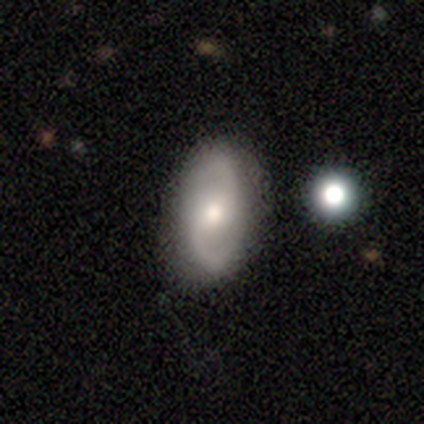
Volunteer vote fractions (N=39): This appears to be a featured or disk galaxy (72%) with no bar (44%), 2 (100%) loose (54%) spiral arms (96%) and a moderate central bulge (70%). Merging: none (78%).